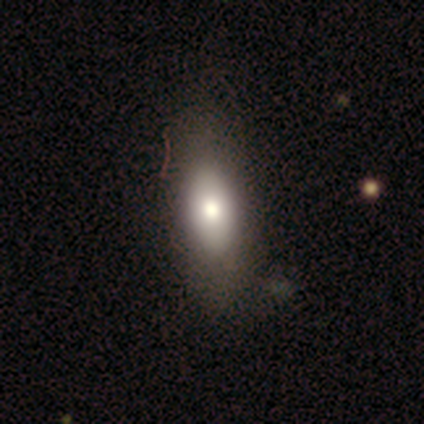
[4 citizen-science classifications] This is clearly a smooth galaxy (100%). How rounded: possibly in between (50%, tied with cigar-shaped). Merging: likely none (75%).